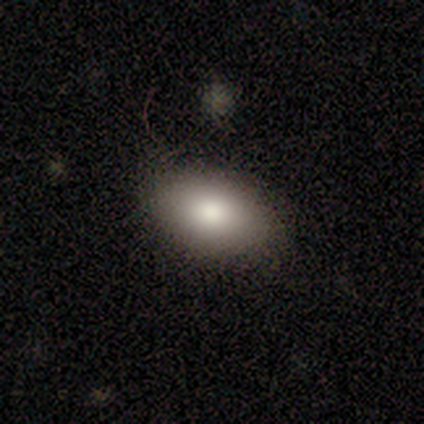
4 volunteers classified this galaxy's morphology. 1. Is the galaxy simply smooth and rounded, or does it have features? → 100% smooth, 0% featured or disk, 0% star or artifact.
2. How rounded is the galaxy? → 100% in between, 0% round, 0% cigar-shaped.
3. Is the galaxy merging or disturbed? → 50% none (tied), 50% minor disturbance (tied), 0% major disturbance, 0% merger.